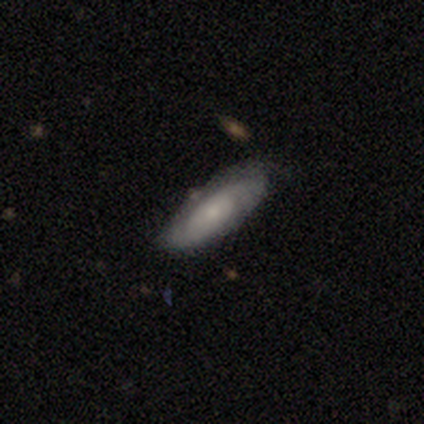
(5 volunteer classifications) smooth-or-featured: featured or disk: 60% | smooth: 40% | star or artifact: 0%
  disk-edge-on: no: 100% | yes: 0%
    bar: no: 67% | weak: 33% | strong: 0%
    has-spiral-arms: yes: 67% | no: 33%
      spiral-winding: tight: 50% (tied) | loose: 50% (tied) | medium: 0%
      spiral-arm-count: 2: 100% | 1: 0% | 3: 0% | 4: 0% | more than 4: 0% | can't tell: 0%
    bulge-size: small: 67% | moderate: 33% | dominant: 0% | large: 0% | none: 0%
  merging: none: 60% | minor disturbance: 40% | major disturbance: 0% | merger: 0%